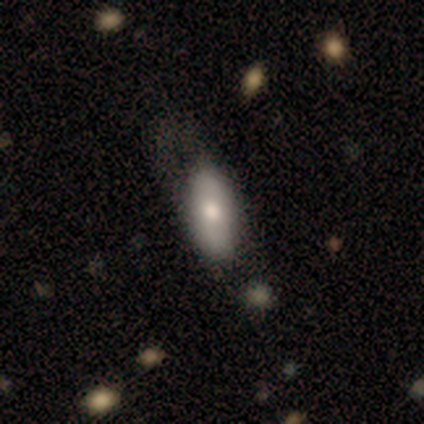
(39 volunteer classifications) A smooth galaxy with no disk features (69%) that is in between round and cigar-shaped (89%). Merging: none (42%).